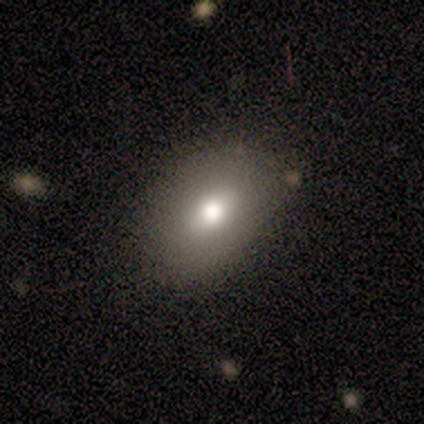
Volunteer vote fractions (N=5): Volunteers were most divided on "how rounded": in between: 75%, cigar-shaped: 25%, round: 0%. More confident: smooth or featured — smooth (80%); merging — none (80%).